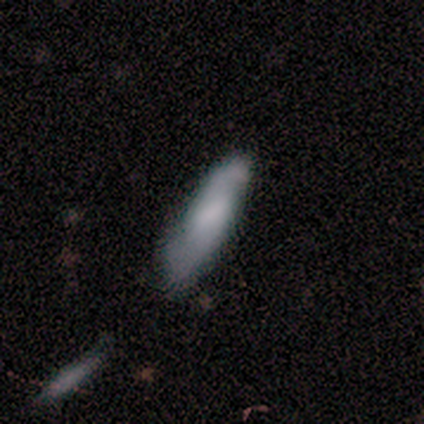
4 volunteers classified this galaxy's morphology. type=smooth (50%, tied with featured or disk); roundness=in between (100%); merging=none (75%).